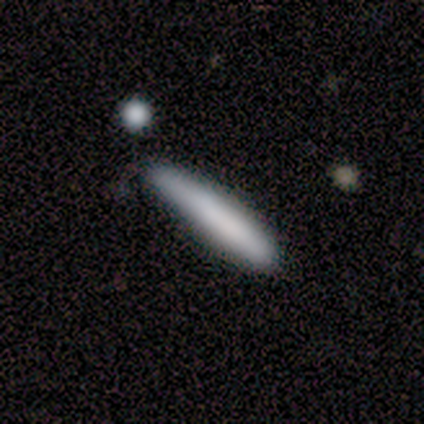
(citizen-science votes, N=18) This is clearly a smooth galaxy (83%). How rounded: clearly cigar-shaped (100%). Merging: likely none (61%).